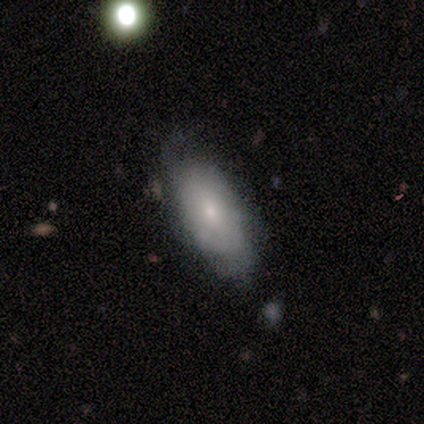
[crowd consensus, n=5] Smooth or featured?
  - smooth: 60% *
  - featured or disk: 40%
  - star or artifact: 0%
How rounded?
  - in between: 67% *
  - round: 33%
  - cigar-shaped: 0%
Merging?
  - none: 80% *
  - minor disturbance: 20%
  - major disturbance: 0%
  - merger: 0%